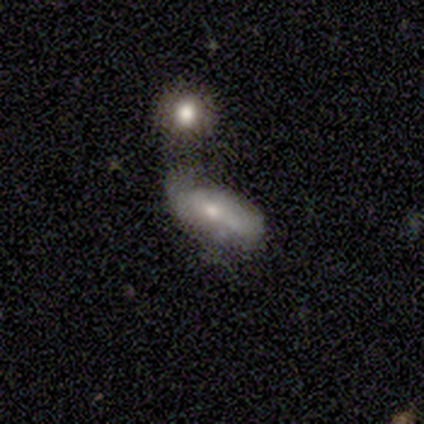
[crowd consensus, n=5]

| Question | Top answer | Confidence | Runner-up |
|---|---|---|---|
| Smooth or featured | featured or disk | 60% | smooth (40%) |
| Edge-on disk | no | 67% | yes (33%) |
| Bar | weak | 50% | tied: no (50%) |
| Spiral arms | no | 100% | — |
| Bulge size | small | 50% | tied: none (50%) |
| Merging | minor disturbance | 80% | none (20%) |